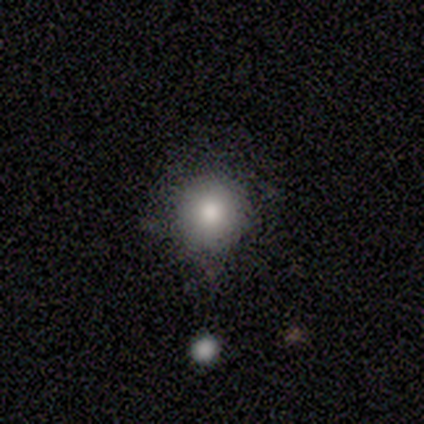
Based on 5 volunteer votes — Q: Smooth or featured?
A: smooth (80%); runner-up: featured or disk (20%)
Q: How rounded?
A: round (100%)
Q: Merging?
A: none (80%); runner-up: minor disturbance (20%)